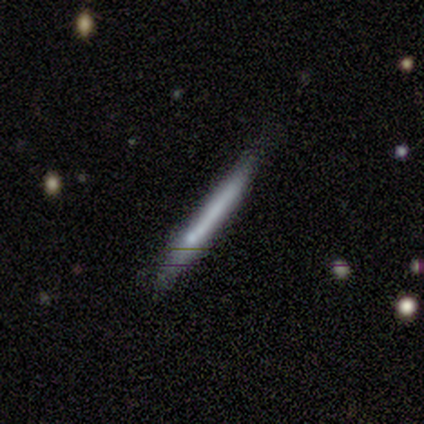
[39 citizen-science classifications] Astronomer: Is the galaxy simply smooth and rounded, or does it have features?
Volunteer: featured or disk — 59% (runner-up: smooth, 38%).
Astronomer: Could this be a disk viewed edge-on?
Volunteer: yes — 91%.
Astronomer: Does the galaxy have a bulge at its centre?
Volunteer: none — 90%.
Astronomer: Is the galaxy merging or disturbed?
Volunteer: none — 68%.